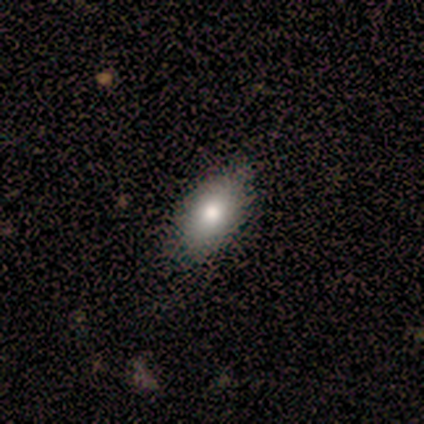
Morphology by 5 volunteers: type=smooth (80%); roundness=in between (100%); merging=none (100%).